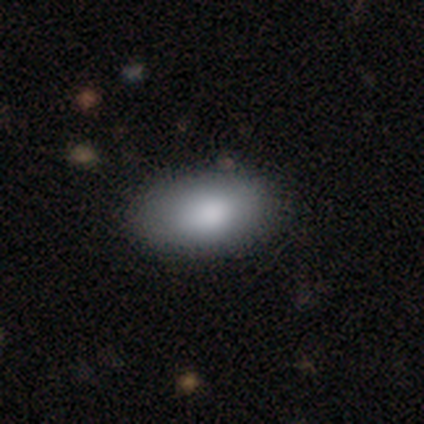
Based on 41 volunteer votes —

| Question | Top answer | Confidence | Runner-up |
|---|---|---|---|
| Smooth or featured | smooth | 83% | featured or disk (12%) |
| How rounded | in between | 100% | — |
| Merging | none | 38% | minor disturbance (10%) |